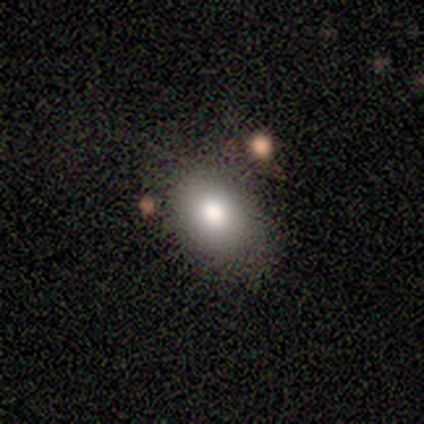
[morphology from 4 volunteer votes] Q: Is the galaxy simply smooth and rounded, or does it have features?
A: smooth — 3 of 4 (75%).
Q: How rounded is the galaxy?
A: in between — 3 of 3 (100%).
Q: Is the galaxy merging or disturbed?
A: none — 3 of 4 (75%).